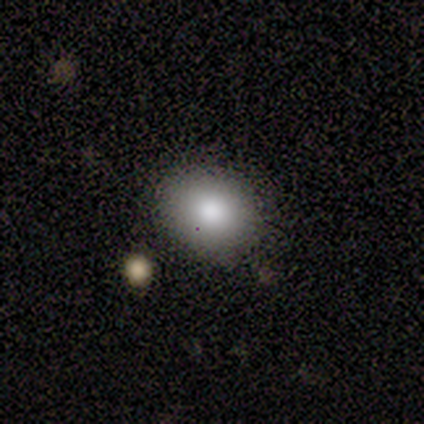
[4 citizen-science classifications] Smooth or featured: smooth — 50% (tied with featured or disk — 50%)
How rounded: round — 50% (tied with in between — 50%)
Merging: none — 100%